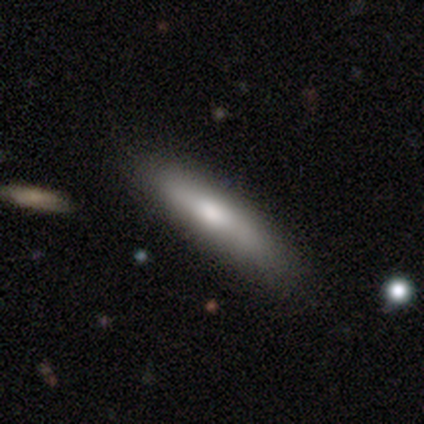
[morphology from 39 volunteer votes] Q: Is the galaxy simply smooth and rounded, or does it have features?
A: smooth — 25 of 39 (64%).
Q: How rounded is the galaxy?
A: cigar-shaped — 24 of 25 (96%).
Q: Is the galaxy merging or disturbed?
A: none — 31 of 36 (86%).